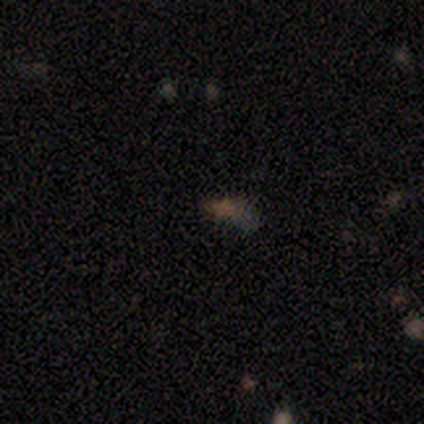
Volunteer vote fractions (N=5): A star or artifact, not a galaxy (80%).

Vote fractions:
- Smooth or featured? star or artifact: 80% / smooth: 20% / featured or disk: 0%